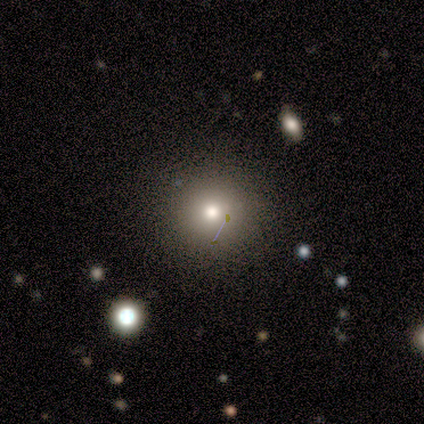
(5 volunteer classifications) Volunteers were most divided on "smooth or featured": smooth: 60%, star or artifact: 40%, featured or disk: 0%. More confident: how rounded — round (100%); merging — none (100%).